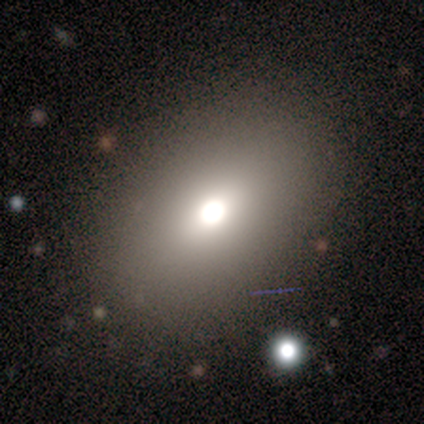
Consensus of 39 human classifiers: This appears to be a smooth galaxy with no disk features (82%) that is in between round and cigar-shaped (81%). Merging: none (83%).